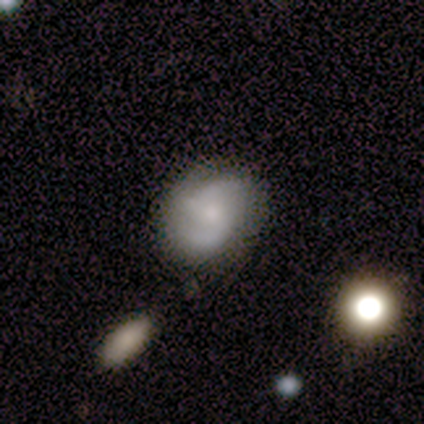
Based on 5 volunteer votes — A featured or disk galaxy (60%) with a weak bar (67%), 2 (100%) medium (67%) spiral arms (100%) and a moderate central bulge (67%).

Vote fractions:
- Smooth or featured? featured or disk: 60% / smooth: 40% / star or artifact: 0%
- Edge-on disk? no: 100% / yes: 0%
- Bar? weak: 67% / no: 33% / strong: 0%
- Spiral arms? yes: 100% / no: 0%
- Spiral winding? medium: 67% / loose: 33% / tight: 0%
- Spiral arm count? 2: 100% / 1: 0% / 3: 0% / 4: 0% / more than 4: 0% / can't tell: 0%
- Bulge size? moderate: 67% / small: 33% / dominant: 0% / large: 0% / none: 0%
- Merging? none: 60% / minor disturbance: 40% / major disturbance: 0% / merger: 0%